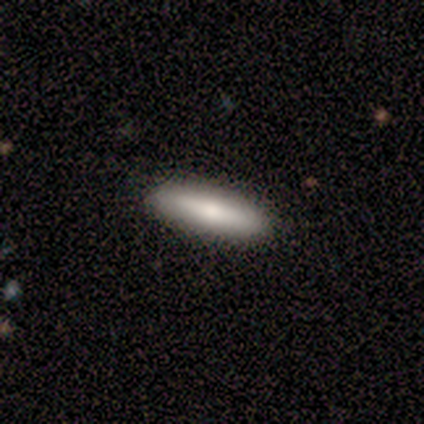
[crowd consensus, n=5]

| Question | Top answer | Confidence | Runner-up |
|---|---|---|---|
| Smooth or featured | smooth | 100% | — |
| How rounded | cigar-shaped | 80% | in between (20%) |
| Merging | none | 100% | — |